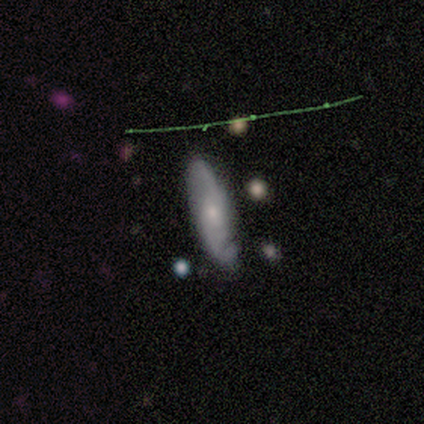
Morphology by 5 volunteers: Q: Smooth or featured?
A: featured or disk (60%); runner-up: smooth (20%)
Q: Edge-on disk?
A: no (100%)
Q: Bar?
A: no (67%); runner-up: weak (33%)
Q: Spiral arms?
A: yes (100%)
Q: Spiral winding?
A: medium (67%); runner-up: loose (33%)
Q: Spiral arm count?
A: 2 (67%); runner-up: can't tell (33%)
Q: Bulge size?
A: small (67%); runner-up: moderate (33%)
Q: Merging?
A: none (100%)